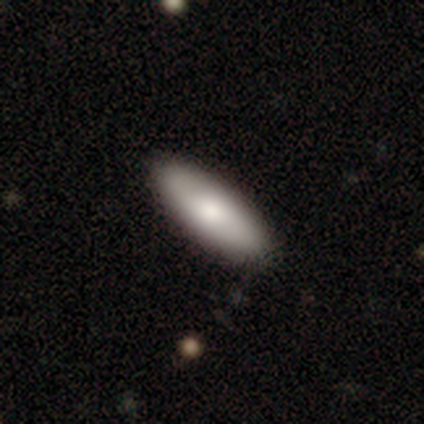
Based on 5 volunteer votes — Smooth or featured?
  - smooth: 80% *
  - featured or disk: 20%
  - star or artifact: 0%
How rounded?
  - in between: 75% *
  - cigar-shaped: 25%
  - round: 0%
Merging?
  - none: 100% *
  - minor disturbance: 0%
  - major disturbance: 0%
  - merger: 0%